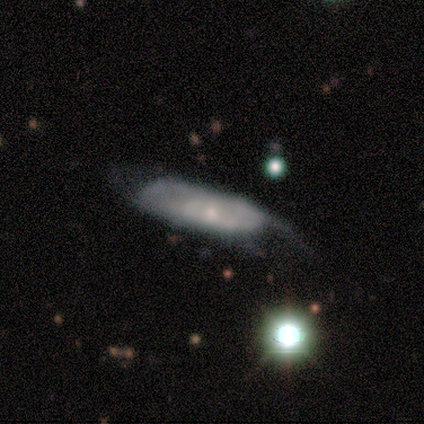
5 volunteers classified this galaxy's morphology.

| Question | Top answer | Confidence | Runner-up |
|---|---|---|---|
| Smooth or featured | smooth | 60% | featured or disk (20%) |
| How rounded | in between | 67% | cigar-shaped (33%) |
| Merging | minor disturbance | 75% | none (25%) |